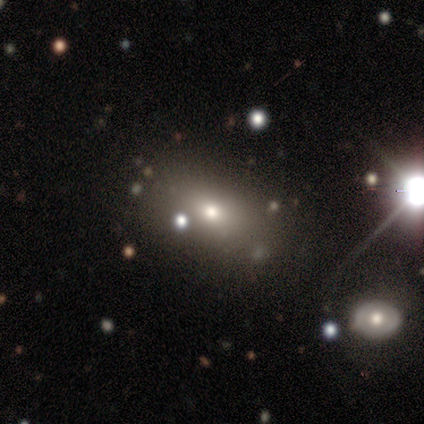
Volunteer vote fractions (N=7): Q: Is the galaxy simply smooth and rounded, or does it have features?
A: smooth — 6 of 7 (86%).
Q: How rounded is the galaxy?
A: round — 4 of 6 (67%).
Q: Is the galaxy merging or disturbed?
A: none — 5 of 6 (83%).